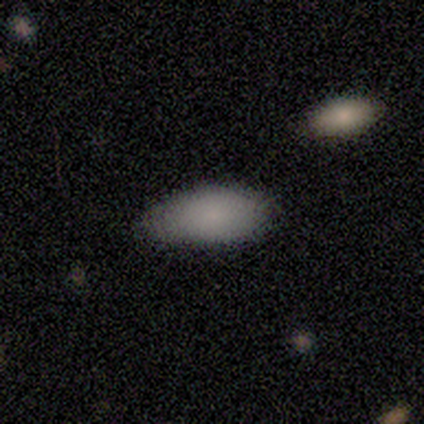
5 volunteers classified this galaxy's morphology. smooth_or_featured: smooth (p=0.80) [alt: star or artifact p=0.20]
how_rounded: in between (p=1.00)
merging: minor disturbance (p=0.50) [alt: none p=0.25]